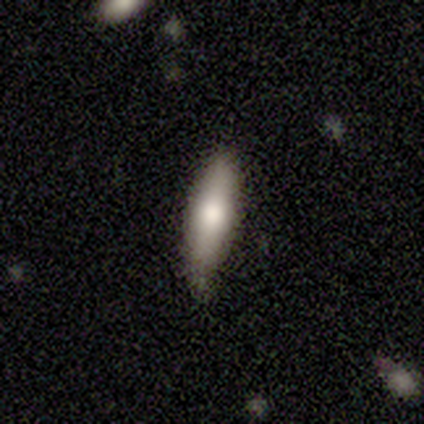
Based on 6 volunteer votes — Smooth or featured? 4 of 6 (67%) said smooth. How rounded? 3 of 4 (75%) said cigar-shaped. Merging? 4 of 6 (67%) said none.